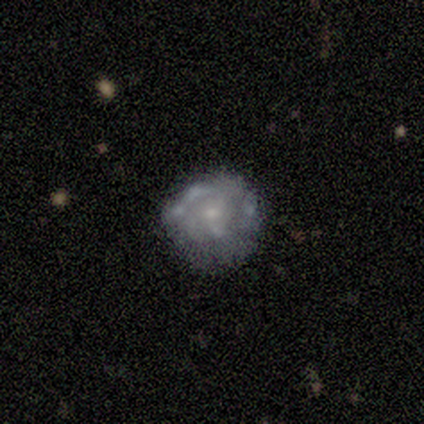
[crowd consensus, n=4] This is likely a smooth galaxy (75%). How rounded: likely round (67%). Merging: clearly none (100%).